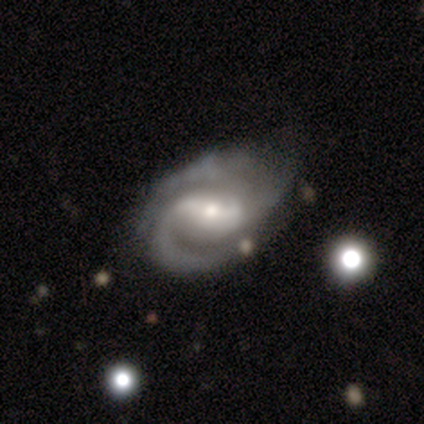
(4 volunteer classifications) This appears to be a featured or disk galaxy (100%) with a strong bar (50%, tied with weak), 2 (75%) tight (75%) spiral arms (100%) and a moderate central bulge (50%). Merging: none (50%).